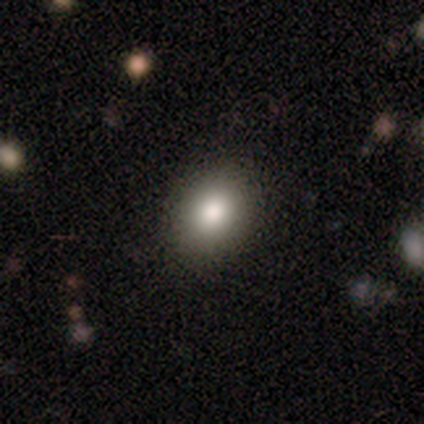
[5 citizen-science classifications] Smooth or featured? smooth (100%)
How rounded? round (60%)
Merging? none (100%)